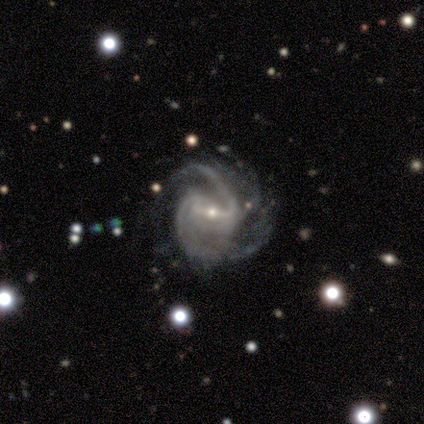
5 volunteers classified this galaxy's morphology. This appears to be a featured or disk galaxy (80%) with a strong bar (50%, tied with weak), 2 (50%) medium (50%) spiral arms (100%) and a small central bulge (100%). Merging: none (80%).